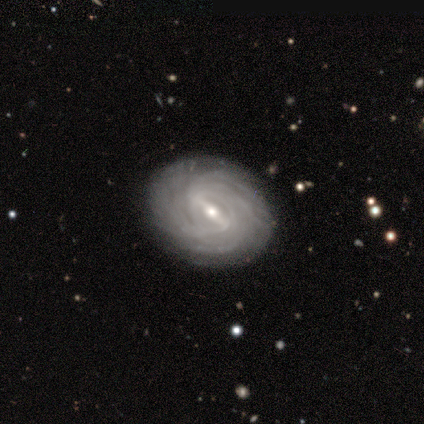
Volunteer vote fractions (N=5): This is clearly a featured or disk galaxy (100%). It is clearly not viewed edge-on (100%). Bar: marginally strong (40%, tied with weak). Spiral arm pattern: clearly yes (100%). Spiral arm count: likely can't tell (60%). Spiral winding: clearly tight (100%). Central bulge: likely small (60%). Merging: clearly none (80%).